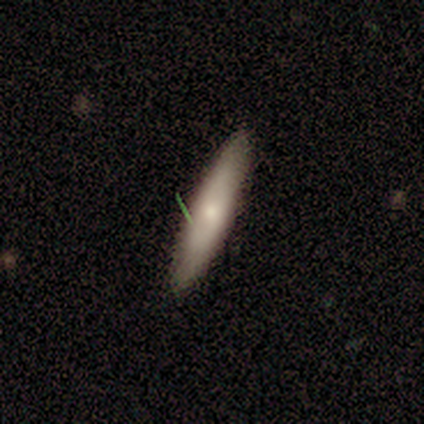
Smooth or featured: smooth — 80% (featured or disk — 20%)
How rounded: in between — 50% (tied with cigar-shaped — 50%)
Merging: none — 80% (minor disturbance — 20%)